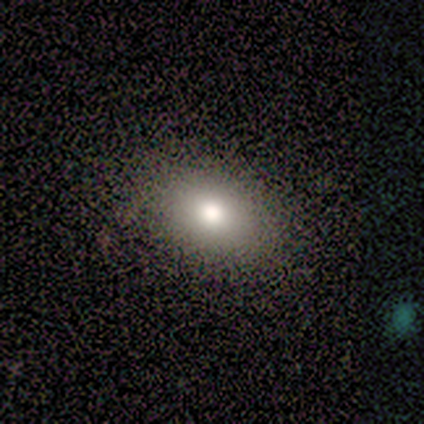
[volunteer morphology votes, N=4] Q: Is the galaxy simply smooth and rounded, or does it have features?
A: featured or disk — 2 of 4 (50%).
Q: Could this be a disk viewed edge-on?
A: no — 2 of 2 (100%).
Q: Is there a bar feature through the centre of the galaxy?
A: no — 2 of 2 (100%).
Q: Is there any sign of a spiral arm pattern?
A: no — 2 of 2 (100%).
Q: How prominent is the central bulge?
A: large — 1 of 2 (50%, tied with moderate).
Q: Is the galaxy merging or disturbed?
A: none — 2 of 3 (67%).